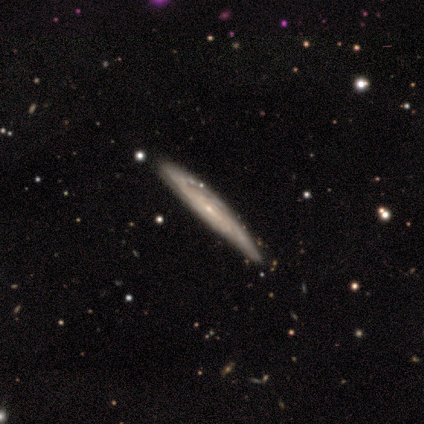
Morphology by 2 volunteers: smooth_or_featured: smooth (p=1.00)
how_rounded: cigar-shaped (p=1.00)
merging: none (p=0.50) [tied with: minor disturbance p=0.50]